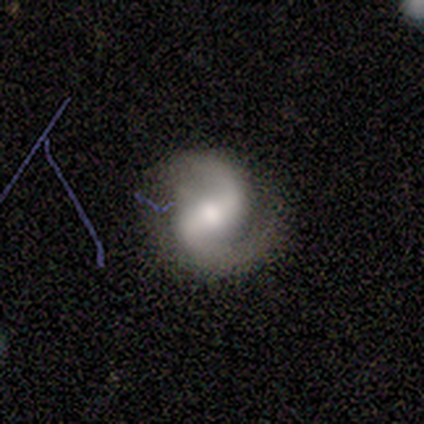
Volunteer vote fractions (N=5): Smooth or featured: featured or disk — 100%
Edge-on disk: no — 80% (yes — 20%)
Bar: strong — 75% (weak — 25%)
Spiral arms: yes — 100%
Spiral winding: medium — 75% (tight — 25%)
Spiral arm count: 2 — 100%
Bulge size: moderate — 100%
Merging: none — 60% (minor disturbance — 40%)